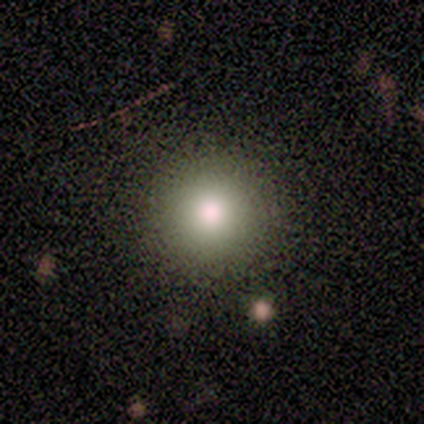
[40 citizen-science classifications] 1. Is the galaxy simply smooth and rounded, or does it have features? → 70% smooth, 18% star or artifact, 12% featured or disk.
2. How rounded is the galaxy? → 100% round, 0% in between, 0% cigar-shaped.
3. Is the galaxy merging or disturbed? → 94% none, 6% minor disturbance, 0% major disturbance, 0% merger.